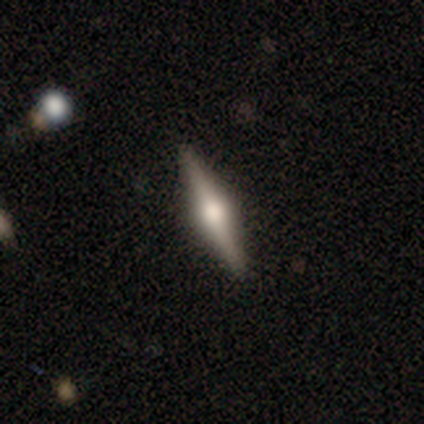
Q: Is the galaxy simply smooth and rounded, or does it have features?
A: featured or disk — 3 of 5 (60%).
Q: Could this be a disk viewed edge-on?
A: yes — 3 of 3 (100%).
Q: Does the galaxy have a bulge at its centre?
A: rounded — 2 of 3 (67%).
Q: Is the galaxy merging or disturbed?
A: none — 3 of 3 (100%).